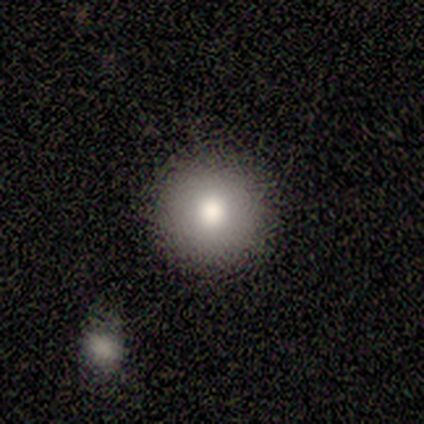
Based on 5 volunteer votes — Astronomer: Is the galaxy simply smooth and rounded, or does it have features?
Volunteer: smooth — 80%.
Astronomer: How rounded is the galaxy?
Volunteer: round — 75%.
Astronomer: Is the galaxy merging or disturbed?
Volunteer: none — 80%.